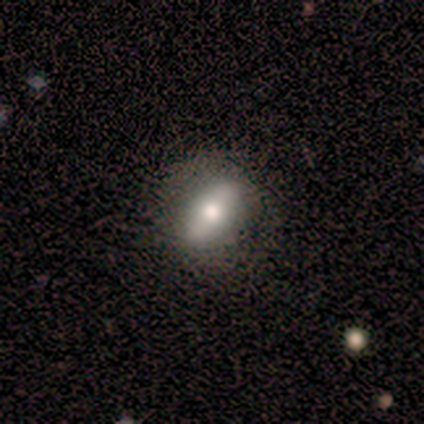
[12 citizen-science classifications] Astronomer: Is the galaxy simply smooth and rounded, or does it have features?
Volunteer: smooth — 58%.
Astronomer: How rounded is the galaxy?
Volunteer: in between — 86%.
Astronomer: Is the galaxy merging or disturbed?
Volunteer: none — 91%.